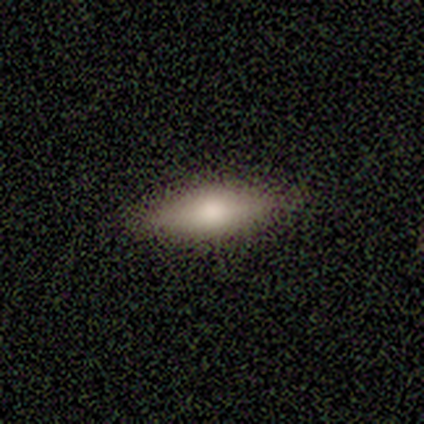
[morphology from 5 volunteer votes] Smooth or featured? 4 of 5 (80%) said smooth. How rounded? 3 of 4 (75%) said in between. Merging? 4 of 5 (80%) said none.